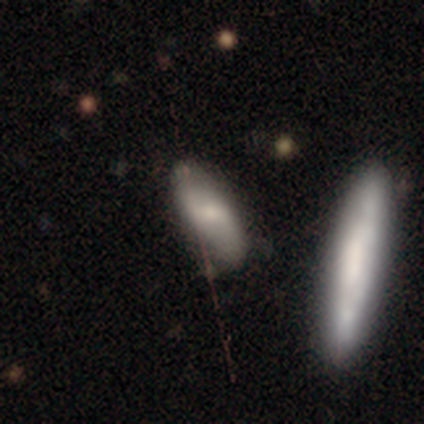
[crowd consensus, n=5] A smooth galaxy with no disk features (60%) that is in between round and cigar-shaped (67%).

Vote fractions:
- Smooth or featured? smooth: 60% / featured or disk: 40% / star or artifact: 0%
- How rounded? in between: 67% / cigar-shaped: 33% / round: 0%
- Merging? none: 100% / minor disturbance: 0% / major disturbance: 0% / merger: 0%